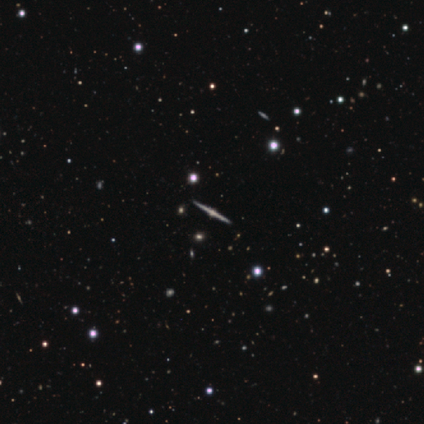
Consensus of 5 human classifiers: Q: Smooth or featured?
A: featured or disk (80%); runner-up: smooth (20%)
Q: Edge-on disk?
A: yes (100%)
Q: Edge-on bulge?
A: rounded (75%); runner-up: none (25%)
Q: Merging?
A: none (100%)